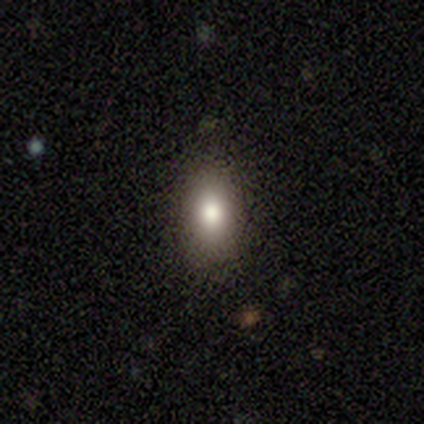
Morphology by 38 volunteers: Smooth or featured?
  - smooth: 87% *
  - featured or disk: 8%
  - star or artifact: 5%
How rounded?
  - in between: 88% *
  - round: 9%
  - cigar-shaped: 3%
Merging?
  - none: 86% *
  - minor disturbance: 6%
  - merger: 6%
  - major disturbance: 3%